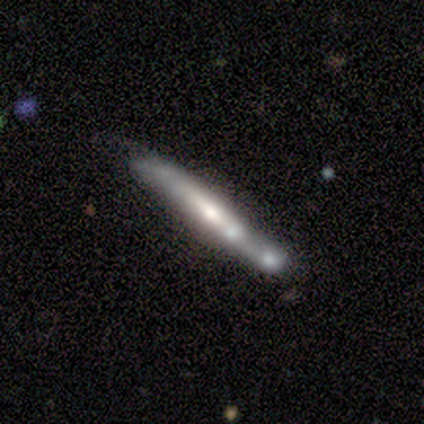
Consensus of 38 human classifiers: This appears to be a featured or disk galaxy (68%) viewed edge-on (96%) with a rounded central bulge (68%). Merging: none (39%).